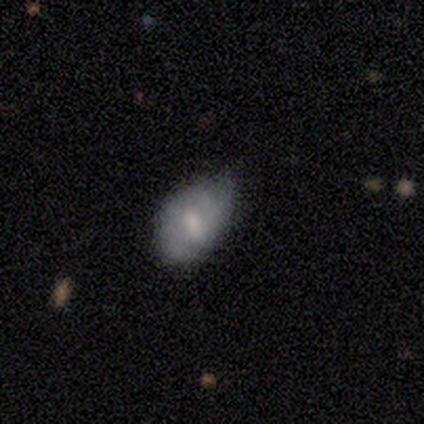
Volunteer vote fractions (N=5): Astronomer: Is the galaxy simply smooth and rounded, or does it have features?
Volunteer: featured or disk — 60% (runner-up: smooth, 40%).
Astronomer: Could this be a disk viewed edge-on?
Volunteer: no — 100%.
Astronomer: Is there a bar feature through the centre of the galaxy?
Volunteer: no — 67%.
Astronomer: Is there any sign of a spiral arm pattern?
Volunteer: no — 67%.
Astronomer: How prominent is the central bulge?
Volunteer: small — 100%.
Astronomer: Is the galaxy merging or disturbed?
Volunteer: minor disturbance — 60% (runner-up: none, 40%).